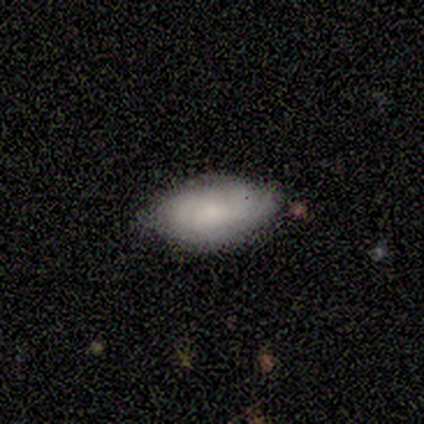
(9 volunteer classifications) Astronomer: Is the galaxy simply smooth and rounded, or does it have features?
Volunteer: smooth — 56% (runner-up: featured or disk, 33%).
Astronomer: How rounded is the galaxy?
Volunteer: in between — 80%.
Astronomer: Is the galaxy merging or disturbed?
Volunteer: none — 62%.